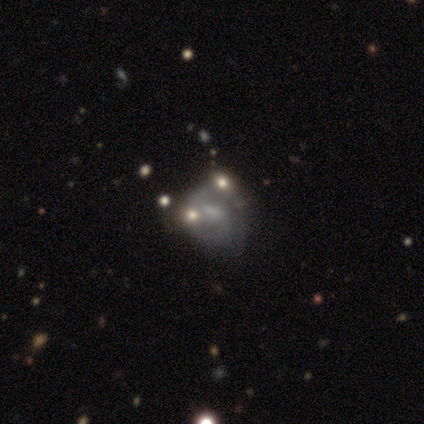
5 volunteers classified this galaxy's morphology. smooth_or_featured: featured or disk (p=0.80) [alt: smooth p=0.20]
disk_edge_on: no (p=1.00)
bar: weak (p=0.75) [alt: no p=0.25]
has_spiral_arms: yes (p=0.75) [alt: no p=0.25]
spiral_winding: loose (p=0.67) [alt: tight p=0.33]
spiral_arm_count: 2 (p=0.67) [alt: 1 p=0.33]
bulge_size: none (p=0.50) [alt: large p=0.25]
merging: none (p=0.40) [tied with: major disturbance p=0.40]